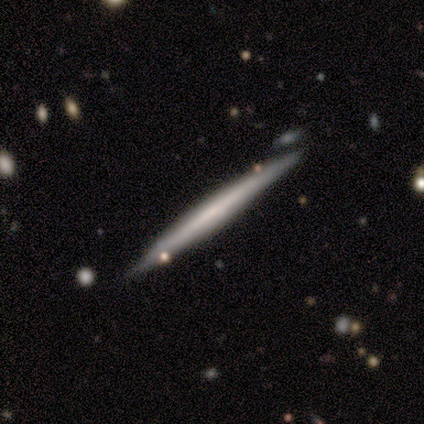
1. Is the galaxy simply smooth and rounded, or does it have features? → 60% featured or disk, 40% smooth, 0% star or artifact.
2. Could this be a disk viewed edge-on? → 100% yes, 0% no.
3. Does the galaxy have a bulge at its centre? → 67% none, 33% rounded, 0% boxy.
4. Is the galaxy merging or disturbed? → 100% none, 0% minor disturbance, 0% major disturbance, 0% merger.